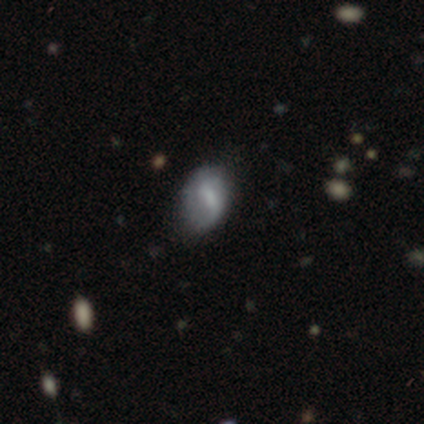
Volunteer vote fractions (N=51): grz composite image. It shows a featured or disk galaxy (49%) with a weak bar (42%), 2 (65%) loose (53%) spiral arms (71%) and no central bulge (42%). Merging: none (54%).